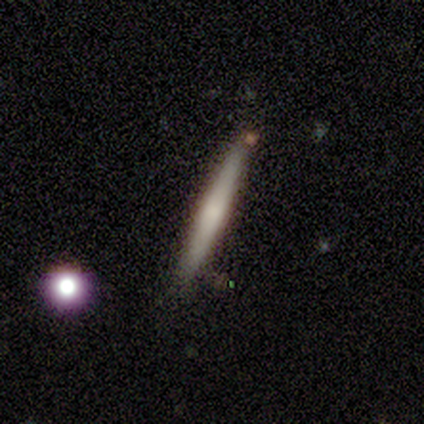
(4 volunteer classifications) Overall: smooth (75%). How rounded: cigar-shaped (100%). Merging: none (100%).